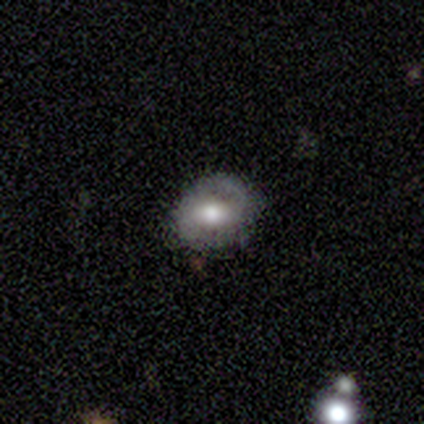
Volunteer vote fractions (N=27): Smooth or featured: smooth — 56% (featured or disk — 30%)
How rounded: in between — 53% (round — 47%)
Merging: none — 78% (minor disturbance — 22%)